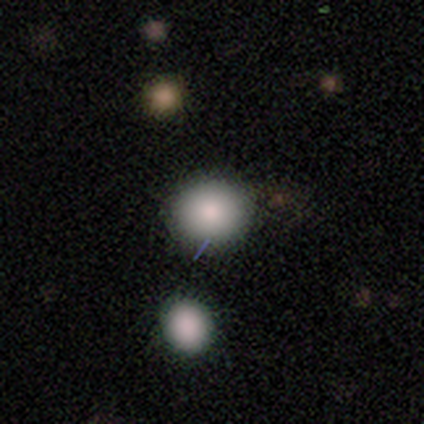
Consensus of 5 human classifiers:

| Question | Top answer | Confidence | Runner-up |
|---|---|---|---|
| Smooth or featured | smooth | 80% | star or artifact (20%) |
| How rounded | round | 75% | in between (25%) |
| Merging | none | 75% | minor disturbance (25%) |